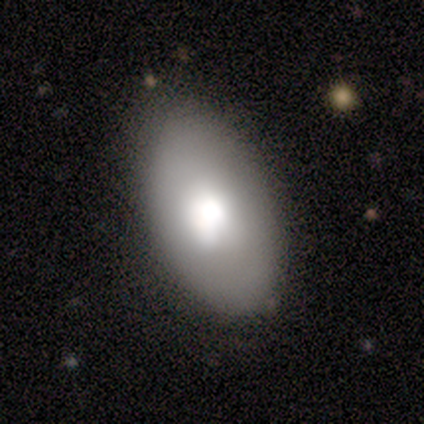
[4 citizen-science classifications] This appears to be a smooth galaxy with no disk features (50%) that is in between round and cigar-shaped (100%). Merging: none (100%).